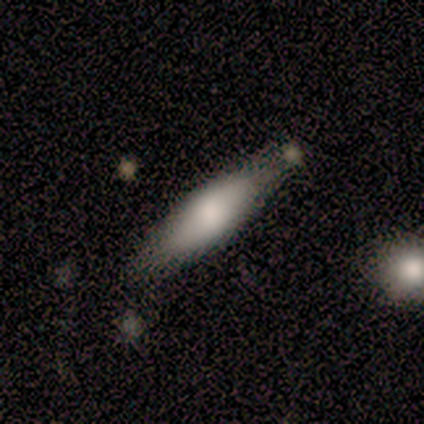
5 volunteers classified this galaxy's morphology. This is clearly a smooth galaxy (80%). How rounded: clearly cigar-shaped (100%). Merging: likely minor disturbance (60%).